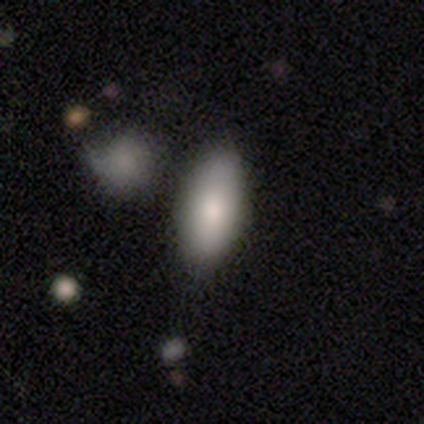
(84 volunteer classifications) Smooth or featured? 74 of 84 (88%) said smooth. How rounded? 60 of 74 (81%) said in between. Merging? 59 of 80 (74%) said none.